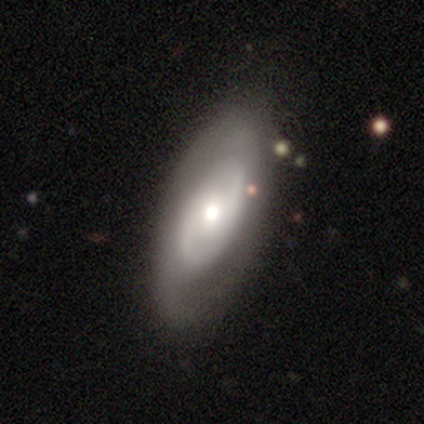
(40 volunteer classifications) Smooth or featured? featured or disk (72%)
Edge-on disk? no (97%)
Bar? no (86%)
Spiral arms? yes (61%)
Spiral winding? medium (53%)
Spiral arm count? 2 (88%)
Bulge size? moderate (57%)
Merging? none (57%)